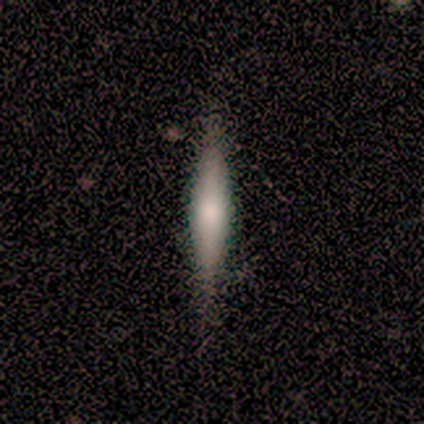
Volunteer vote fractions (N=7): Morphology: type=smooth (57%); roundness=cigar-shaped (100%); merging=none (100%).